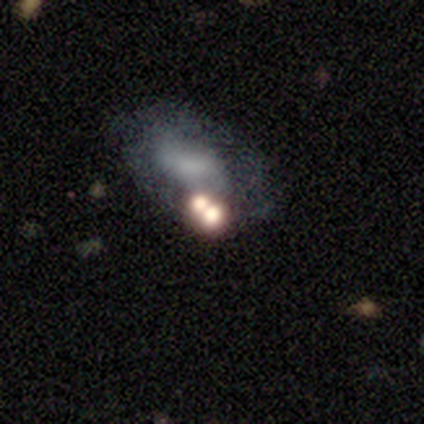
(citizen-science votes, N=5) This is marginally a smooth galaxy (40%, tied with star or artifact). How rounded: possibly in between (50%, tied with cigar-shaped). Merging: marginally none (33%, tied with major disturbance and merger).